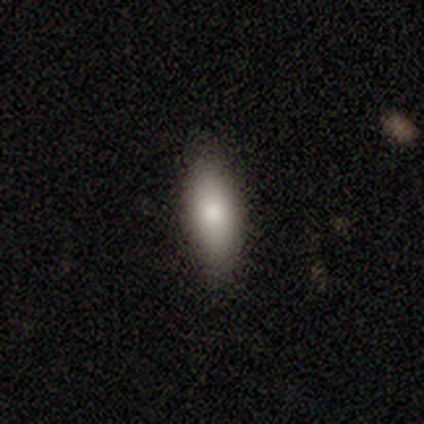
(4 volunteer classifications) This appears to be a smooth galaxy with no disk features (100%) that is in between round and cigar-shaped (75%). Merging: none (100%).